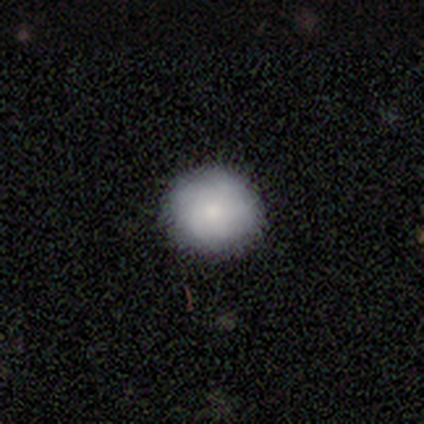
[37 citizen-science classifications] A smooth galaxy with no disk features (86%) that is round (91%). Merging: none (97%).